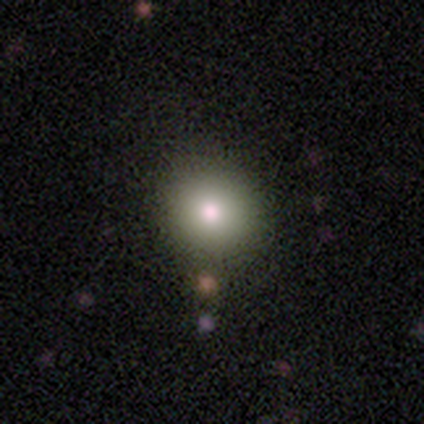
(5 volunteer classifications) A smooth galaxy with no disk features (60%) that is round (100%).

Vote fractions:
- Smooth or featured? smooth: 60% / star or artifact: 40% / featured or disk: 0%
- How rounded? round: 100% / in between: 0% / cigar-shaped: 0%
- Merging? none: 100% / minor disturbance: 0% / major disturbance: 0% / merger: 0%